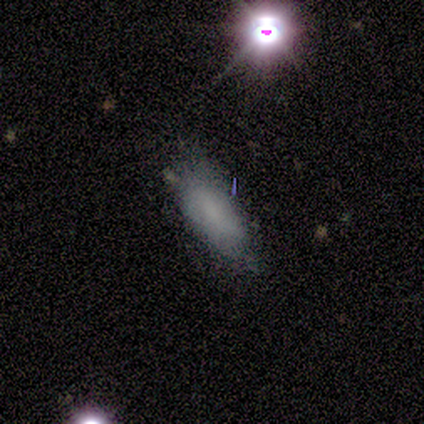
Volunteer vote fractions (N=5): Smooth or featured? smooth (60%)
How rounded? in between (100%)
Merging? none (50%, tied with minor disturbance)